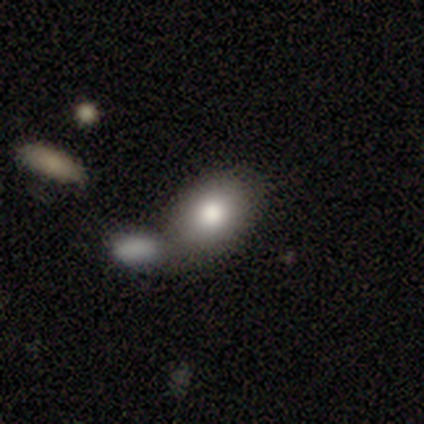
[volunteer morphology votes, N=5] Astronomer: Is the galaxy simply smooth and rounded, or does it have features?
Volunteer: smooth — 60%.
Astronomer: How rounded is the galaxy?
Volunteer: in between — 67%.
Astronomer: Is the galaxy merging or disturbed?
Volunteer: none — 50%, tied with merger at 50%.